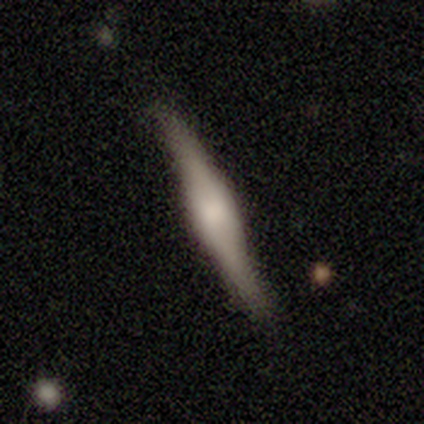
Overall: featured or disk (100%). Edge-on disk: yes (100%). Edge-on bulge: boxy (50%, tied with rounded). Merging: none (50%; minor disturbance 25%).